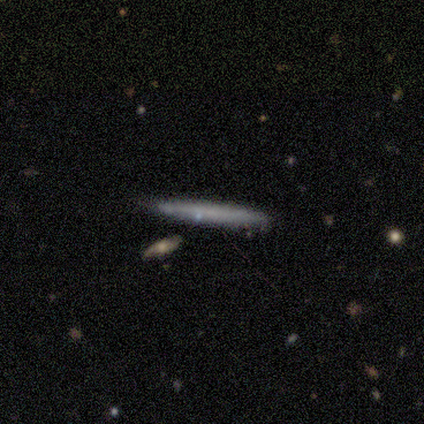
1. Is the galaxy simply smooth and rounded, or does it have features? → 75% featured or disk, 25% smooth, 0% star or artifact.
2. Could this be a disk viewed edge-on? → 100% yes, 0% no.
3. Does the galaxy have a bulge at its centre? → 100% none, 0% boxy, 0% rounded.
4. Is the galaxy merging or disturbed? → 100% none, 0% minor disturbance, 0% major disturbance, 0% merger.